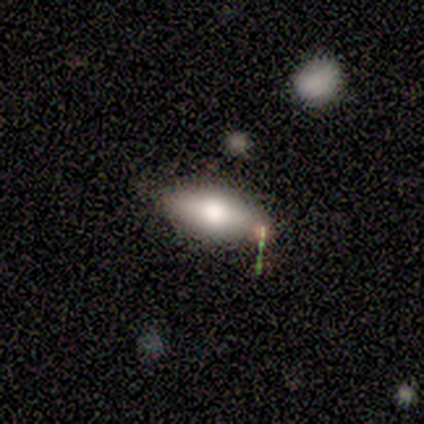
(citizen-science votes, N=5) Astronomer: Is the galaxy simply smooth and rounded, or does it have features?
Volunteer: smooth — 40%, tied with featured or disk at 40%.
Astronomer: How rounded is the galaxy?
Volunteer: in between — 100%.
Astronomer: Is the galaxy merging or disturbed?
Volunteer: none — 50%.